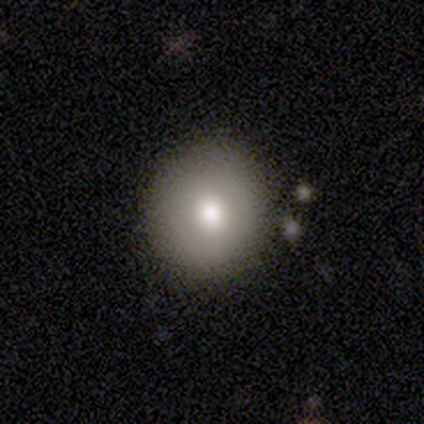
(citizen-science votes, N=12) Morphology: type=smooth (75%); roundness=round (100%); merging=none (100%).